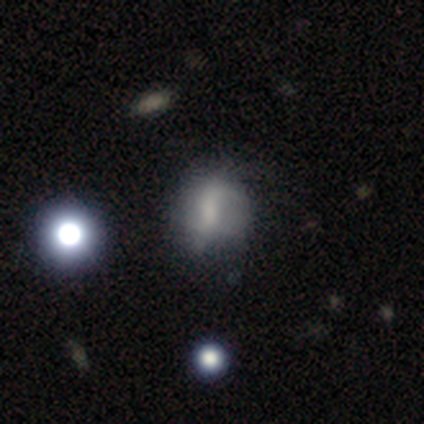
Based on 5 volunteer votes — Smooth or featured? featured or disk (80%)
Edge-on disk? no (100%)
Bar? weak (50%, tied with no)
Spiral arms? yes (50%, tied with no)
Spiral winding? loose (100%)
Spiral arm count? 1 (50%, tied with 2)
Bulge size? small (75%)
Merging? minor disturbance (40%)